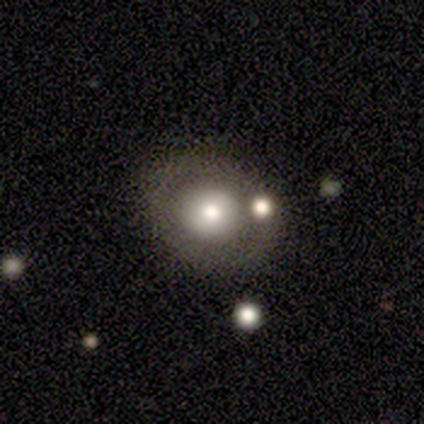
smooth_or_featured: smooth (p=0.80) [alt: star or artifact p=0.20]
how_rounded: round (p=0.75) [alt: in between p=0.25]
merging: none (p=0.75) [alt: merger p=0.25]